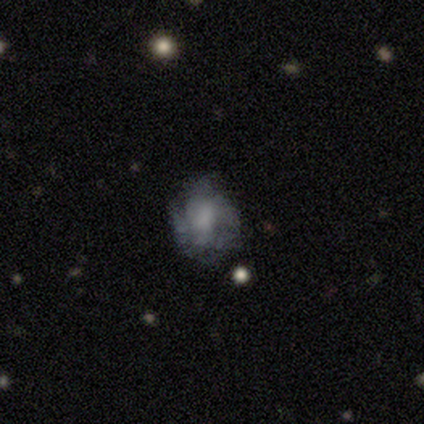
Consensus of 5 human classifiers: This is likely a smooth galaxy (60%). How rounded: likely round (67%). Merging: marginally none (40%, tied with minor disturbance).